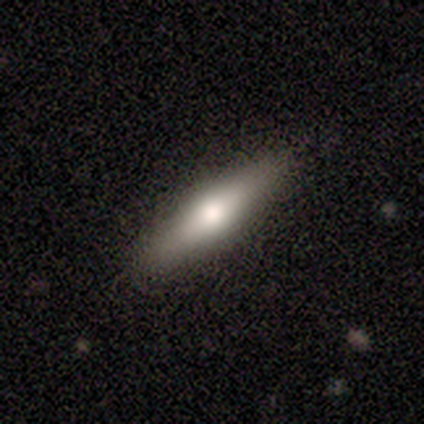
Smooth or featured? 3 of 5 (60%) said smooth. How rounded? 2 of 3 (67%) said cigar-shaped. Merging? 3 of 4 (75%) said none.